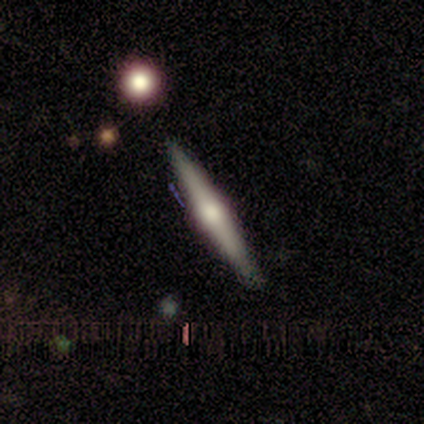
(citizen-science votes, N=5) Smooth or featured: featured or disk — 60% (smooth — 40%)
Edge-on disk: yes — 100%
Edge-on bulge: rounded — 67% (boxy — 33%)
Merging: none — 100%